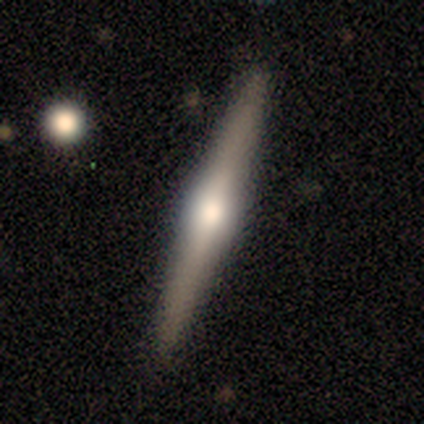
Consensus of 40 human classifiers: This is likely a featured or disk galaxy (72%). It is clearly viewed edge-on (100%). Edge-on bulge: clearly rounded (86%). Merging: clearly none (86%).